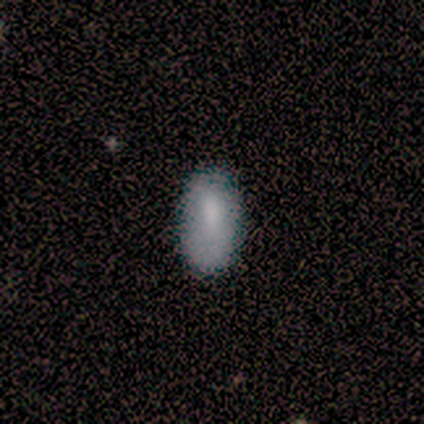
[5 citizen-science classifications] smooth-or-featured: smooth: 80% | featured or disk: 20% | star or artifact: 0%
  how-rounded: in between: 100% | round: 0% | cigar-shaped: 0%
  merging: none: 80% | minor disturbance: 20% | major disturbance: 0% | merger: 0%